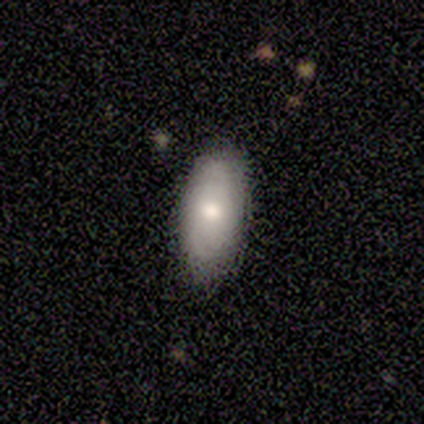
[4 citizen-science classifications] Morphology: type=smooth (100%); roundness=in between (100%); merging=none (100%).